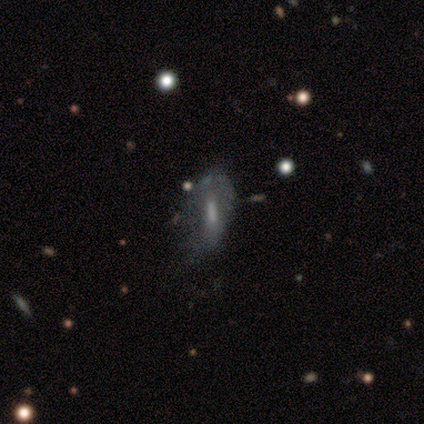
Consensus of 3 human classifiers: A smooth galaxy with no disk features (67%) that is in between round and cigar-shaped (50%, tied with cigar-shaped).

Vote fractions:
- Smooth or featured? smooth: 67% / featured or disk: 33% / star or artifact: 0%
- How rounded? in between: 50% (tied) / cigar-shaped: 50% (tied) / round: 0%
- Merging? none: 67% / minor disturbance: 33% / major disturbance: 0% / merger: 0%